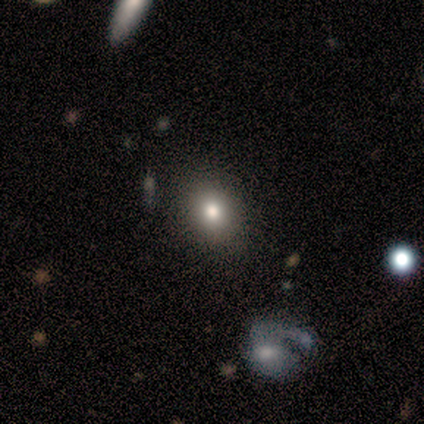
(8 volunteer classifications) This appears to be a smooth galaxy with no disk features (62%) that is in between round and cigar-shaped (60%). Merging: none (86%).